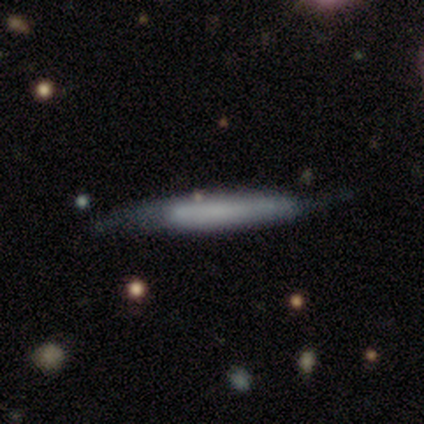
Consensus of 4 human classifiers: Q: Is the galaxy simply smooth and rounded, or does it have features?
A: smooth — 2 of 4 (50%, tied with featured or disk).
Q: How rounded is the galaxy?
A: cigar-shaped — 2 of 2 (100%).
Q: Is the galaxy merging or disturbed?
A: none — 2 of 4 (50%).